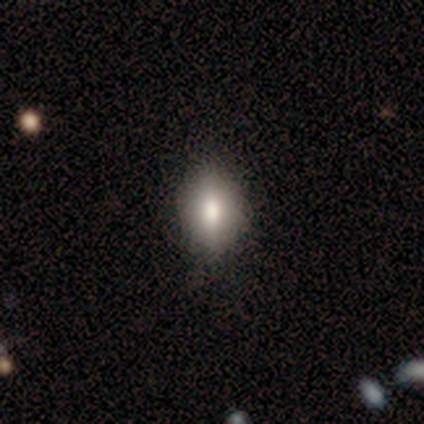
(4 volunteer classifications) Morphology: type=smooth (75%); roundness=in between (100%); merging=none (100%).